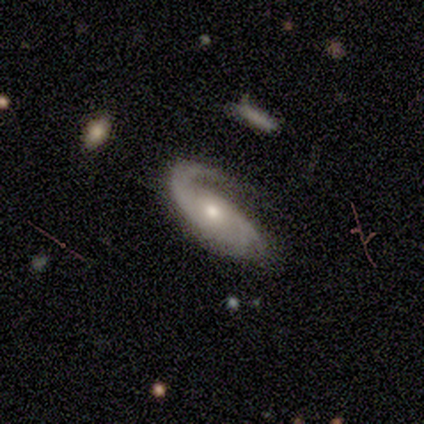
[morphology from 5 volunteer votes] type=featured or disk (100%); edge-on=no (100%); bar=no (100%); spiral arms=yes (100%); winding=tight (60%); arm count=1 (40%, tied with 2); bulge=small (40%); merging=minor disturbance (60%).